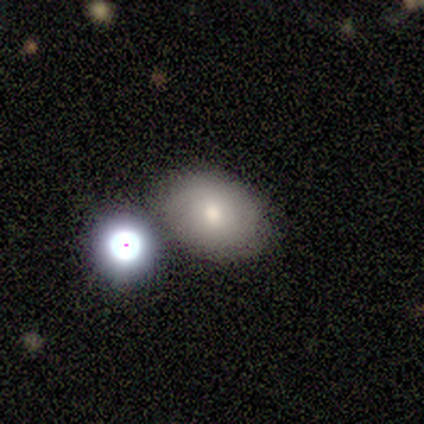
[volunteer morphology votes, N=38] A smooth galaxy with no disk features (50%) that is in between round and cigar-shaped (74%).

Vote fractions:
- Smooth or featured? smooth: 50% / featured or disk: 29% / star or artifact: 21%
- How rounded? in between: 74% / round: 26% / cigar-shaped: 0%
- Merging? none: 70% / minor disturbance: 20% / merger: 7% / major disturbance: 3%